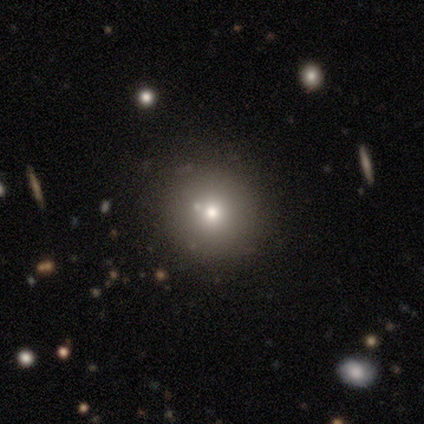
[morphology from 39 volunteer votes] Smooth or featured: smooth — 54% (featured or disk — 28%)
How rounded: round — 86% (cigar-shaped — 10%)
Merging: none — 91% (minor disturbance — 3%)